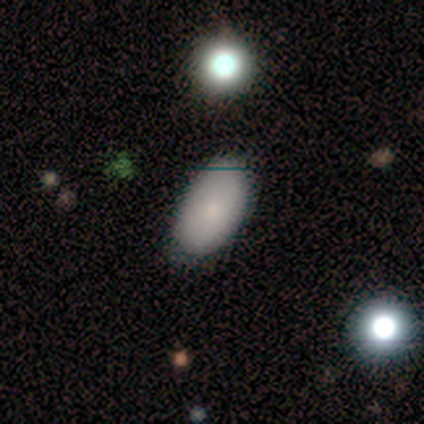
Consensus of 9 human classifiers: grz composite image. It shows a smooth galaxy with no disk features (100%) that is in between round and cigar-shaped (89%). Merging: none (56%).